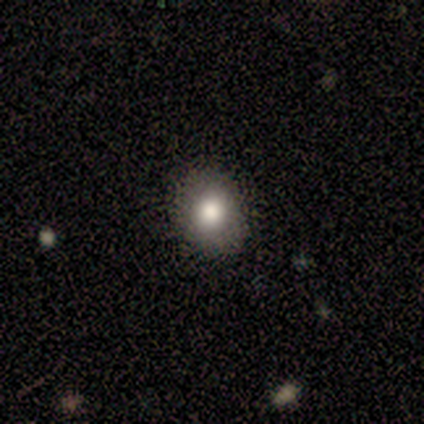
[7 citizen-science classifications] Volunteers were most divided on "how rounded": round: 60%, in between: 40%, cigar-shaped: 0%. More confident: merging — none (100%); smooth or featured — smooth (71%).